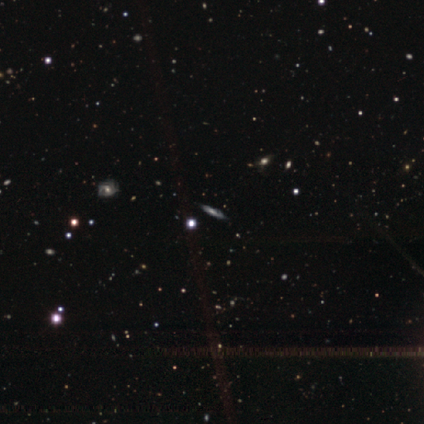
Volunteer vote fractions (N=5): smooth_or_featured: featured or disk (p=0.80) [alt: smooth p=0.20]
disk_edge_on: yes (p=0.50) [tied with: no p=0.50]
edge_on_bulge: rounded (p=1.00)
merging: none (p=0.80) [alt: minor disturbance p=0.20]